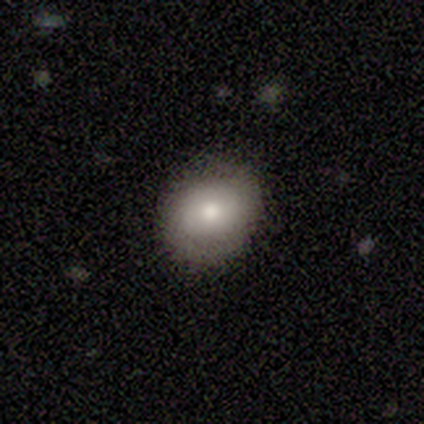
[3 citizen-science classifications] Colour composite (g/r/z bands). It shows a smooth galaxy with no disk features (100%) that is in between round and cigar-shaped (67%). Merging: none (67%).